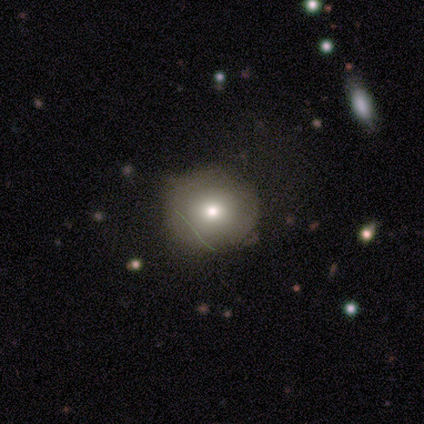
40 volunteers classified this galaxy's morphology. Smooth or featured?
  - smooth: 65% *
  - featured or disk: 20%
  - star or artifact: 15%
How rounded?
  - round: 92% *
  - in between: 8%
  - cigar-shaped: 0%
Merging?
  - none: 74% *
  - minor disturbance: 24%
  - merger: 3%
  - major disturbance: 0%